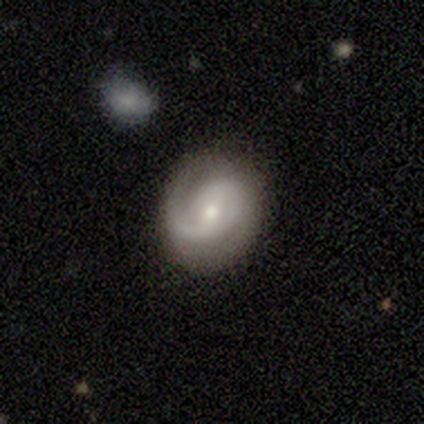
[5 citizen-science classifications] Overall: featured or disk (60%; smooth 40%). Edge-on disk: no (100%). Bar: no (100%). Spiral arms: yes (100%). Spiral arm count: 1 (67%; 2 33%). Spiral winding: loose (67%; medium 33%). Bulge size: small (67%; moderate 33%). Merging: none (100%).